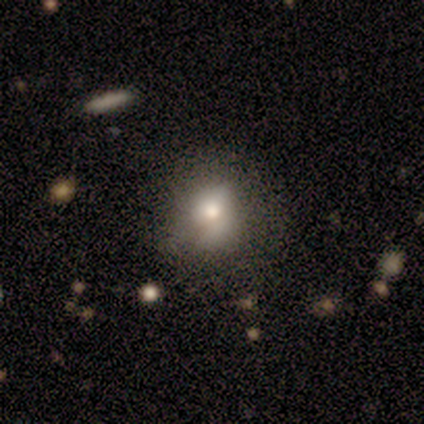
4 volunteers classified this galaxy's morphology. Smooth or featured: smooth — 100%
How rounded: round — 75% (in between — 25%)
Merging: minor disturbance — 50% (none — 25%)